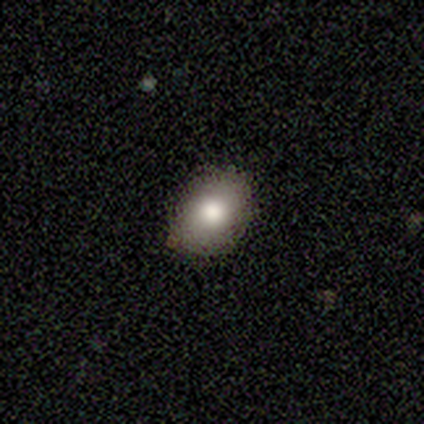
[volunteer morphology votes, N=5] A smooth galaxy with no disk features (100%) that is in between round and cigar-shaped (80%).

Vote fractions:
- Smooth or featured? smooth: 100% / featured or disk: 0% / star or artifact: 0%
- How rounded? in between: 80% / round: 20% / cigar-shaped: 0%
- Merging? none: 100% / minor disturbance: 0% / major disturbance: 0% / merger: 0%